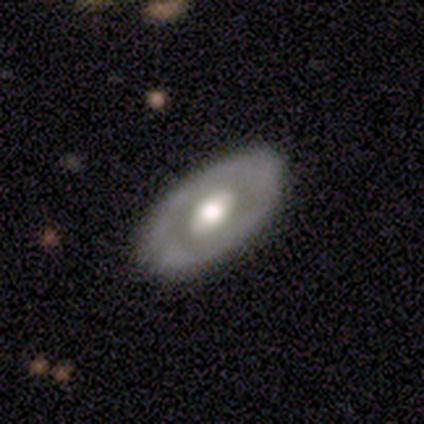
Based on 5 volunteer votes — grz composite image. It shows a featured or disk galaxy (100%) with no bar (75%), no spiral arms (75%) and a moderate central bulge (50%). Merging: none (80%).